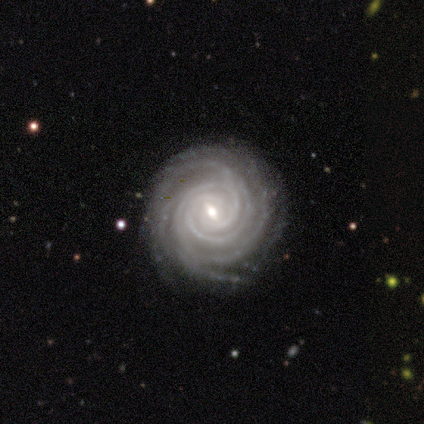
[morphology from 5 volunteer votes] Smooth or featured?
  - featured or disk: 80% *
  - smooth: 20%
  - star or artifact: 0%
Edge-on disk?
  - no: 100% *
  - yes: 0%
Bar?
  - weak: 50% * (tied)
  - no: 50% * (tied)
  - strong: 0%
Spiral arms?
  - yes: 100% *
  - no: 0%
Spiral winding?
  - tight: 75% *
  - medium: 25%
  - loose: 0%
Spiral arm count?
  - 2: 25% * (tied)
  - 4: 25% * (tied)
  - more than 4: 25% * (tied)
  - can't tell: 25% * (tied)
  - 1: 0%
  - 3: 0%
Bulge size?
  - moderate: 50% * (tied)
  - small: 50% * (tied)
  - dominant: 0%
  - large: 0%
  - none: 0%
Merging?
  - none: 60% *
  - minor disturbance: 40%
  - major disturbance: 0%
  - merger: 0%